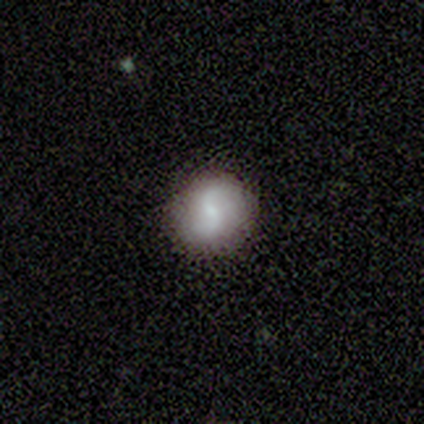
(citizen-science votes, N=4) Q: Smooth or featured?
A: smooth (75%); runner-up: featured or disk (25%)
Q: How rounded?
A: round (67%); runner-up: in between (33%)
Q: Merging?
A: none (100%)